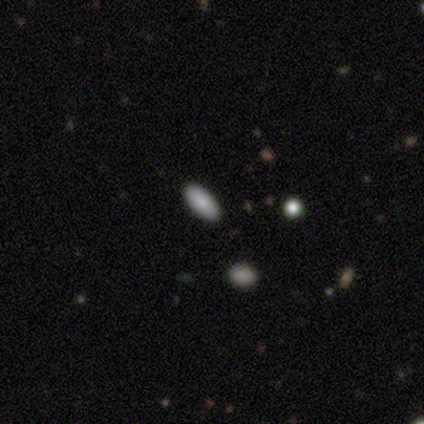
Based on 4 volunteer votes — Smooth or featured? smooth (100%)
How rounded? in between (100%)
Merging? none (75%)